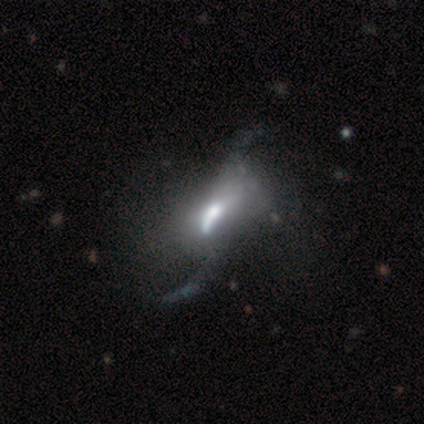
A featured or disk galaxy (80%) with no bar (75%), no spiral arms (75%) and a moderate central bulge (50%). Merging: major disturbance (50%, tied with merger).